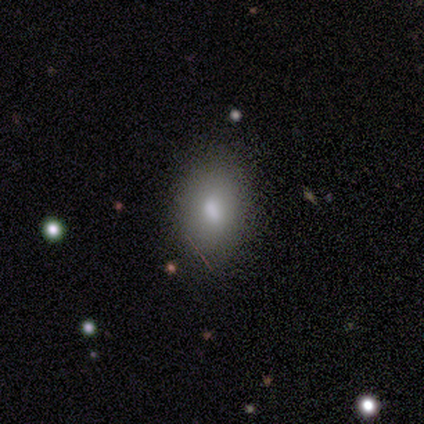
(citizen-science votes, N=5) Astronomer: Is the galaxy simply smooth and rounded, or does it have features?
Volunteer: smooth — 80%.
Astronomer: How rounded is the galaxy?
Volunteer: round — 50%, tied with in between at 50%.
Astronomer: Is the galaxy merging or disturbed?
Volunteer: none — 100%.